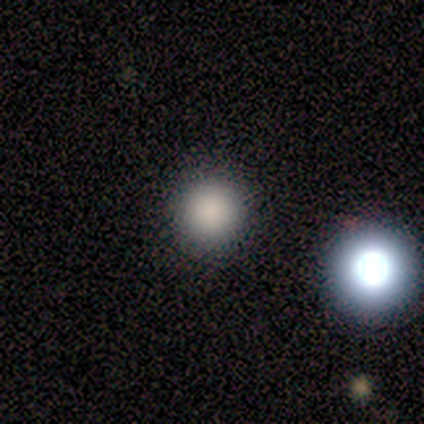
smooth-or-featured: smooth: 75% | featured or disk: 12% | star or artifact: 12%
  how-rounded: round: 100% | in between: 0% | cigar-shaped: 0%
  merging: none: 100% | minor disturbance: 0% | major disturbance: 0% | merger: 0%